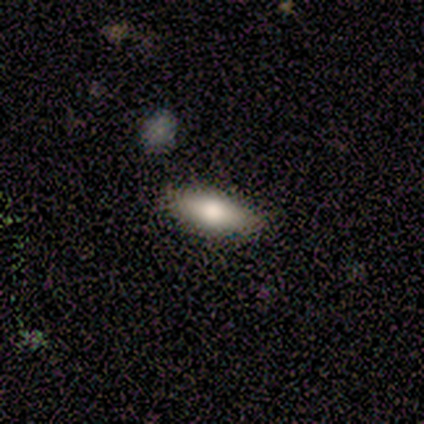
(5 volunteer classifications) A smooth galaxy with no disk features (80%) that is in between round and cigar-shaped (100%).

Vote fractions:
- Smooth or featured? smooth: 80% / star or artifact: 20% / featured or disk: 0%
- How rounded? in between: 100% / round: 0% / cigar-shaped: 0%
- Merging? none: 100% / minor disturbance: 0% / major disturbance: 0% / merger: 0%